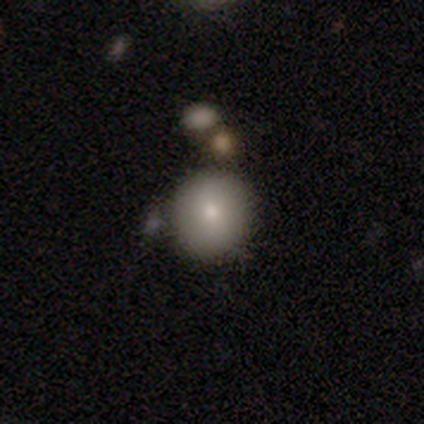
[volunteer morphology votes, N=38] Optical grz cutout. It shows a smooth galaxy with no disk features (76%) that is round (97%). Merging: none (79%).